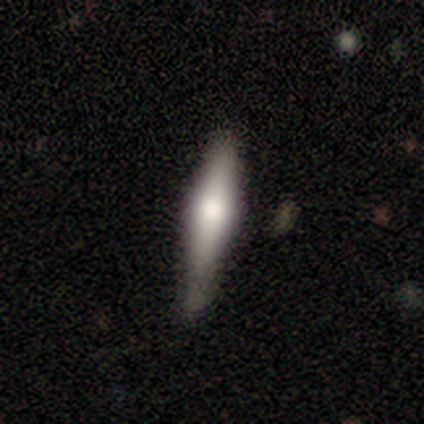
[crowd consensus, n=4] Smooth or featured? smooth (75%)
How rounded? cigar-shaped (67%)
Merging? none (75%)